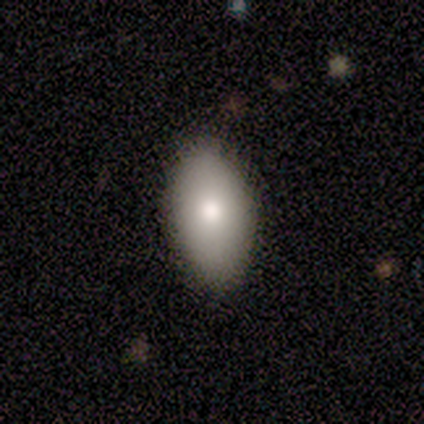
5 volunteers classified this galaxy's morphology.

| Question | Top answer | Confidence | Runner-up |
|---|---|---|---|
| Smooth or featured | smooth | 60% | featured or disk (40%) |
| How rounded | in between | 100% | — |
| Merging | none | 100% | — |